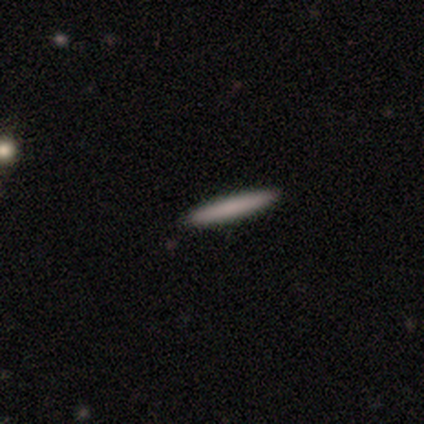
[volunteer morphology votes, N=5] Smooth or featured?
  - smooth: 80% *
  - featured or disk: 20%
  - star or artifact: 0%
How rounded?
  - cigar-shaped: 100% *
  - round: 0%
  - in between: 0%
Merging?
  - none: 100% *
  - minor disturbance: 0%
  - major disturbance: 0%
  - merger: 0%